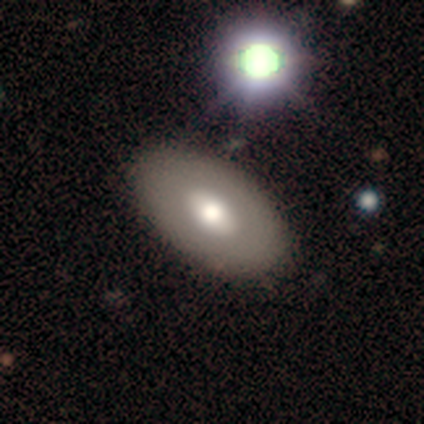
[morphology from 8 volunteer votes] Smooth or featured?
  - smooth: 50% *
  - featured or disk: 38%
  - star or artifact: 12%
How rounded?
  - in between: 100% *
  - round: 0%
  - cigar-shaped: 0%
Merging?
  - none: 100% *
  - minor disturbance: 0%
  - major disturbance: 0%
  - merger: 0%